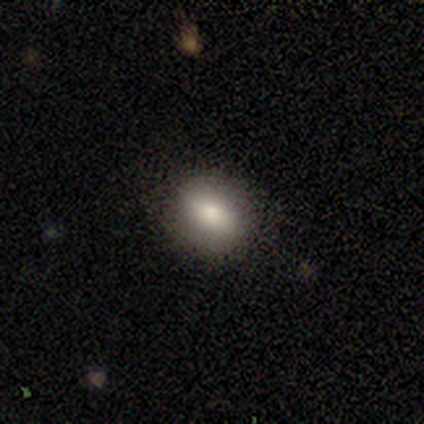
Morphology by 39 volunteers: Q: Smooth or featured?
A: smooth (79%); runner-up: featured or disk (13%)
Q: How rounded?
A: round (52%); runner-up: in between (45%)
Q: Merging?
A: none (83%); runner-up: minor disturbance (14%)